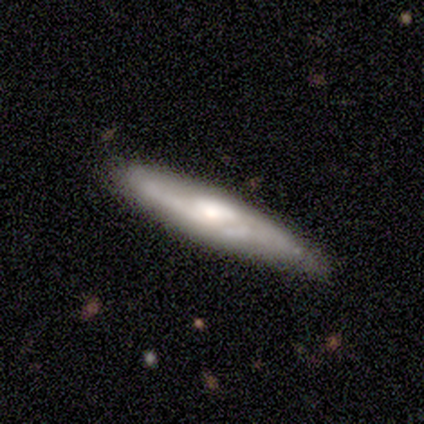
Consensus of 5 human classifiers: This is clearly a featured or disk galaxy (80%). It is possibly viewed edge-on (50%, tied with no). Edge-on bulge: possibly none (50%, tied with rounded). Merging: clearly none (100%).